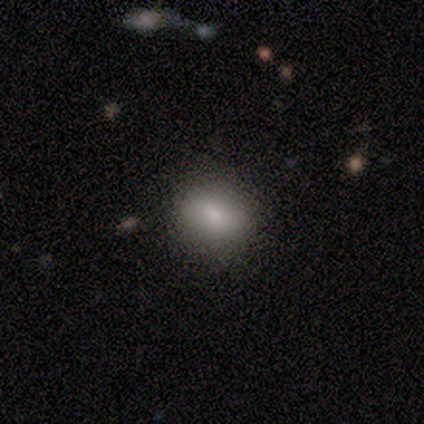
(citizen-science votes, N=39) Smooth or featured?
  - smooth: 77% *
  - featured or disk: 18%
  - star or artifact: 5%
How rounded?
  - round: 53% *
  - in between: 47%
  - cigar-shaped: 0%
Merging?
  - none: 84% *
  - minor disturbance: 16%
  - major disturbance: 0%
  - merger: 0%